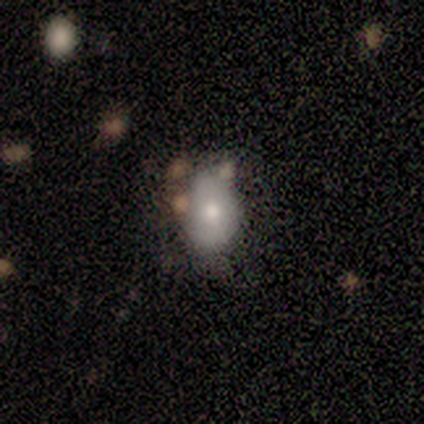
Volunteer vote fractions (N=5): Smooth or featured?
  - smooth: 100% *
  - featured or disk: 0%
  - star or artifact: 0%
How rounded?
  - in between: 80% *
  - round: 20%
  - cigar-shaped: 0%
Merging?
  - none: 60% *
  - minor disturbance: 40%
  - major disturbance: 0%
  - merger: 0%